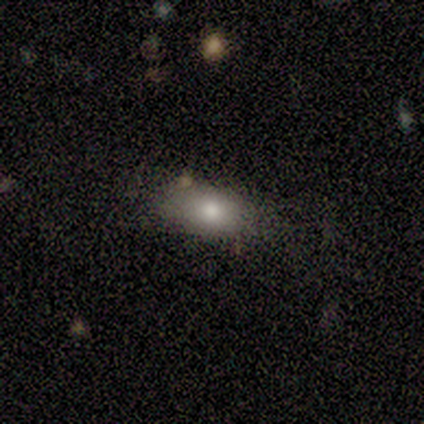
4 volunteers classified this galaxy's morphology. Smooth or featured? 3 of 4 (75%) said smooth. How rounded? 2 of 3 (67%) said round. Merging? 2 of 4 (50%, tied with minor disturbance) said none.